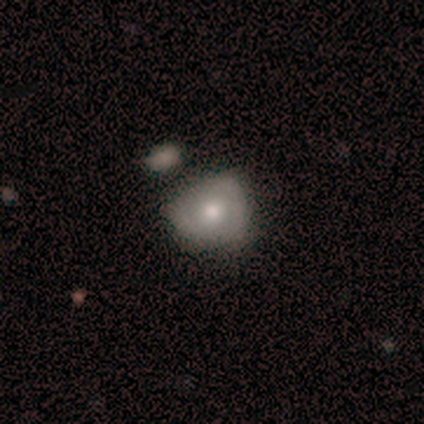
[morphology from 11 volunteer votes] Volunteers were most divided on "merging": minor disturbance: 45%, none: 36%, major disturbance: 18%, merger: 0%. More confident: smooth or featured — smooth (73%); how rounded — round (62%).